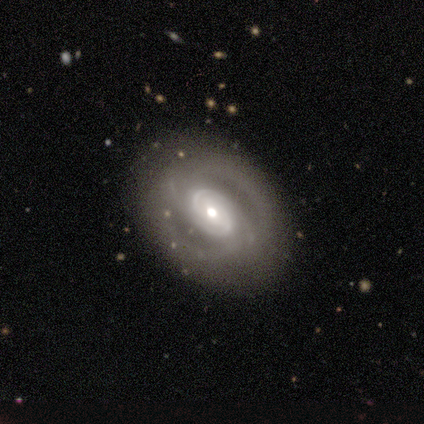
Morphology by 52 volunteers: A featured or disk galaxy (87%) with no bar (66%), 2 (51%) tight (63%) spiral arms (80%) and a moderate central bulge (66%).

Vote fractions:
- Smooth or featured? featured or disk: 87% / smooth: 8% / star or artifact: 6%
- Edge-on disk? no: 98% / yes: 2%
- Bar? no: 66% / weak: 18% / strong: 16%
- Spiral arms? yes: 80% / no: 20%
- Spiral winding? tight: 63% / medium: 37% / loose: 0%
- Spiral arm count? 2: 51% / can't tell: 31% / 4: 11% / 1: 3% / 3: 3% / more than 4: 0%
- Bulge size? moderate: 66% / small: 23% / large: 11% / dominant: 0% / none: 0%
- Merging? none: 80% / minor disturbance: 16% / major disturbance: 2% / merger: 2%